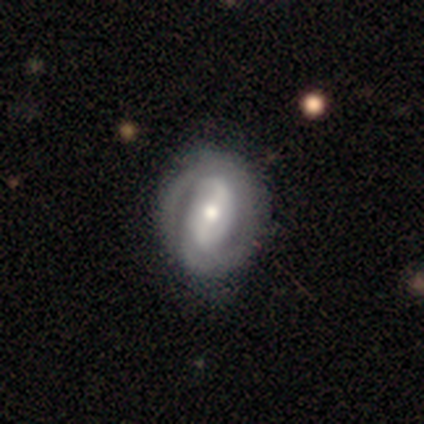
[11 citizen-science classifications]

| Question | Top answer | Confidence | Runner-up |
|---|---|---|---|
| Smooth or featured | featured or disk | 82% | smooth (18%) |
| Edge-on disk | no | 89% | yes (11%) |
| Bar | weak | 75% | strong (25%) |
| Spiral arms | yes | 75% | no (25%) |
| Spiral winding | tight | 83% | medium (17%) |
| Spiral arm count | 2 | 67% | can't tell (33%) |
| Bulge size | moderate | 50% | dominant (25%) |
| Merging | none | 55% | minor disturbance (27%) |